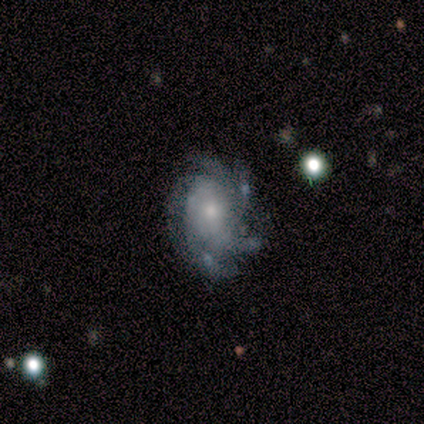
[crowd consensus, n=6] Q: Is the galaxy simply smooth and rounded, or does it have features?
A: featured or disk — 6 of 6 (100%).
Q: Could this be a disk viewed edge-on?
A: no — 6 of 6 (100%).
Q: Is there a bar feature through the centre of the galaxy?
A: no — 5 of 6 (83%).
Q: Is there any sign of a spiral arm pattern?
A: yes — 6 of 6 (100%).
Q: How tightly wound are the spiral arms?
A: tight — 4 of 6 (67%).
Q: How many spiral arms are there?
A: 4 — 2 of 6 (33%, tied with more than 4).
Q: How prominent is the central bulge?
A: small — 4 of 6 (67%).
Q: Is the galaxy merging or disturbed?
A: none — 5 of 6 (83%).